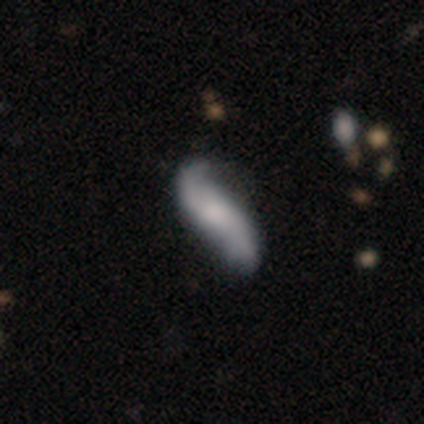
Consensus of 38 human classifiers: featured or disk 66%, smooth 29%, star or artifact 5%. Down the decision tree: edge-on disk — no (96%); bar — no (71%); spiral arms — yes (100%); spiral arm count — 2 (96%); spiral winding — loose (100%); bulge size — small (42%); merging — none (53%).